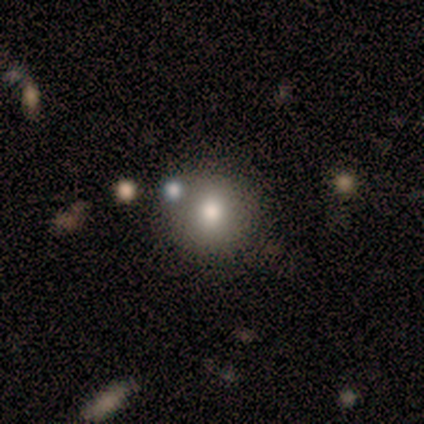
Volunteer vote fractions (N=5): Q: Smooth or featured?
A: smooth (100%)
Q: How rounded?
A: round (100%)
Q: Merging?
A: none (80%); runner-up: minor disturbance (20%)